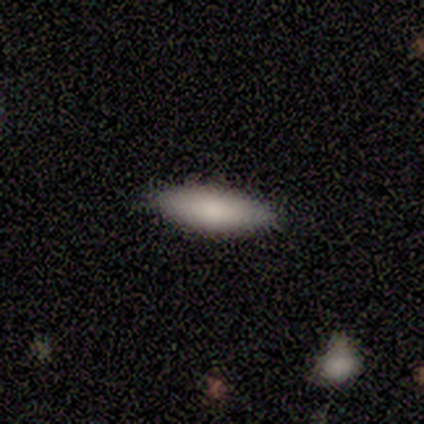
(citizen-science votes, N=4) smooth_or_featured: smooth (p=1.00)
how_rounded: cigar-shaped (p=0.75) [alt: in between p=0.25]
merging: none (p=1.00)